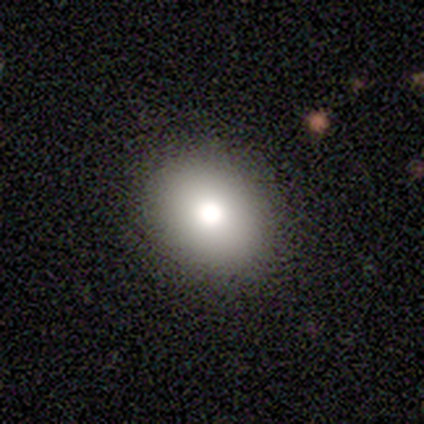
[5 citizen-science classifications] Smooth or featured: smooth — 60% (featured or disk — 20%)
How rounded: in between — 67% (round — 33%)
Merging: none — 75% (minor disturbance — 25%)